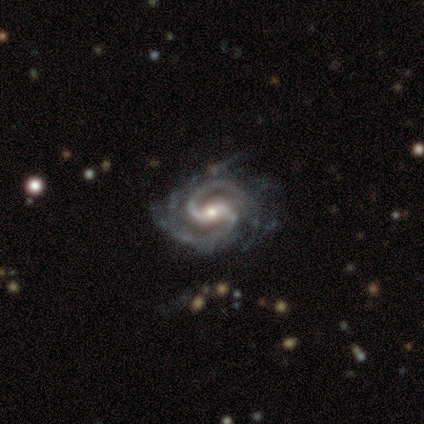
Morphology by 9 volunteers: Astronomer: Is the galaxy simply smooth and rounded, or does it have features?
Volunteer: featured or disk — 100%.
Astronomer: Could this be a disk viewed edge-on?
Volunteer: no — 100%.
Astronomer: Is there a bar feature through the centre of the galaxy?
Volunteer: strong — 56%.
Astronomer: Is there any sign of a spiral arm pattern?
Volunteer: yes — 100%.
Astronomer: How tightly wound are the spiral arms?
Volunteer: medium — 56% (runner-up: tight, 33%).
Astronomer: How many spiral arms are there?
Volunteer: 2 — 89%.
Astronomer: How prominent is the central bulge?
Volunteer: moderate — 56% (runner-up: small, 44%).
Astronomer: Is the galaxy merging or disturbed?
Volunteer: none — 78%.